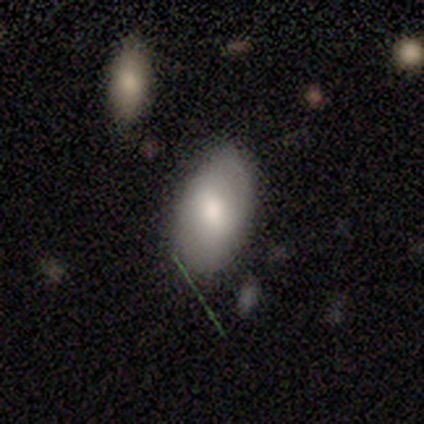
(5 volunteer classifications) Morphology: type=featured or disk (60%); edge-on=no (67%); bar=weak (100%); spiral arms=yes (100%); winding=tight (100%); arm count=can't tell (100%); bulge=moderate (100%); merging=none (100%).